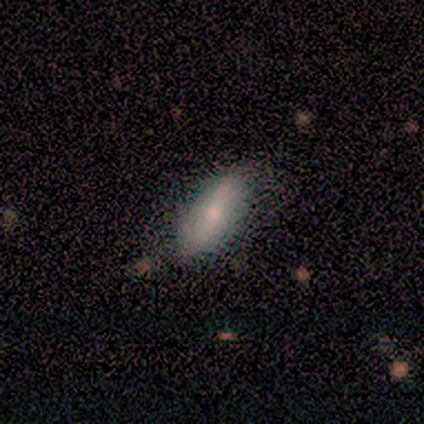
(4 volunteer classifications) A smooth galaxy with no disk features (75%) that is in between round and cigar-shaped (100%).

Vote fractions:
- Smooth or featured? smooth: 75% / featured or disk: 25% / star or artifact: 0%
- How rounded? in between: 100% / round: 0% / cigar-shaped: 0%
- Merging? none: 100% / minor disturbance: 0% / major disturbance: 0% / merger: 0%